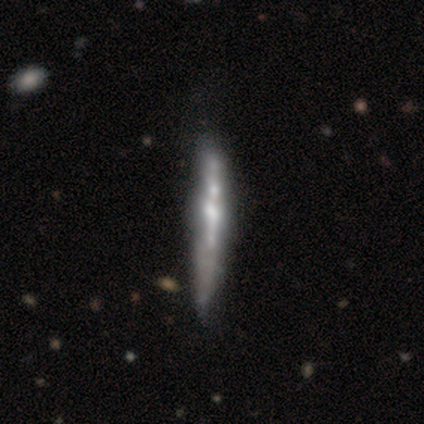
A featured or disk galaxy (72%) viewed edge-on (93%) with a rounded central bulge (48%).

Vote fractions:
- Smooth or featured? featured or disk: 72% / smooth: 22% / star or artifact: 5%
- Edge-on disk? yes: 93% / no: 7%
- Edge-on bulge? rounded: 48% / none: 30% / boxy: 22%
- Merging? none: 39% / minor disturbance: 21% / merger: 8% / major disturbance: 5%